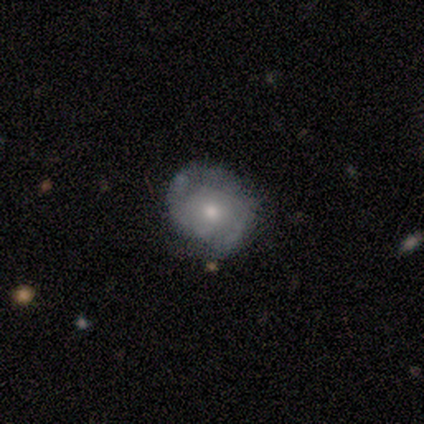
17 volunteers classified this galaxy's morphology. Smooth or featured? featured or disk (88%)
Edge-on disk? no (93%)
Bar? no (93%)
Spiral arms? yes (86%)
Spiral winding? tight (67%)
Spiral arm count? 2 (67%)
Bulge size? moderate (50%, tied with small)
Merging? none (88%)